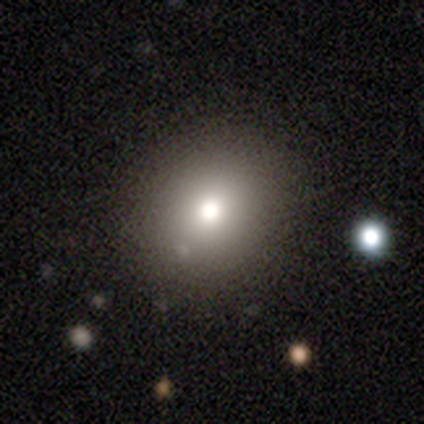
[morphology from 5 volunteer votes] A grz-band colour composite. It shows a smooth galaxy with no disk features (40%, tied with star or artifact) that is in between round and cigar-shaped (100%). Merging: none (67%).